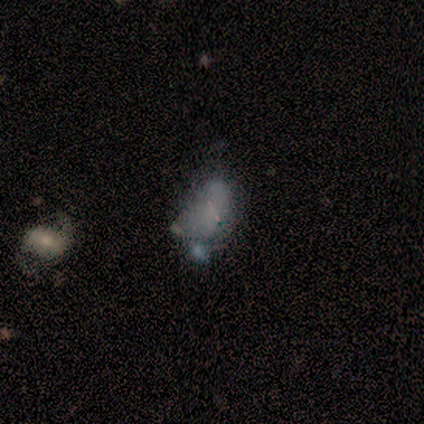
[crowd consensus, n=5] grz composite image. It shows a smooth galaxy with no disk features (40%, tied with featured or disk) that is in between round and cigar-shaped (100%). Merging: minor disturbance (75%).